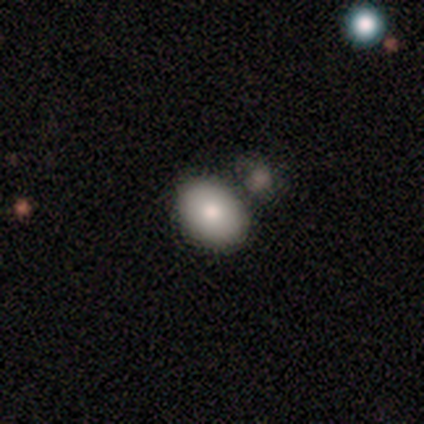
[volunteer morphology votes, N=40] smooth_or_featured: smooth (p=0.82) [alt: featured or disk p=0.17]
how_rounded: in between (p=0.88) [alt: round p=0.12]
merging: none (p=0.78) [alt: minor disturbance p=0.12]